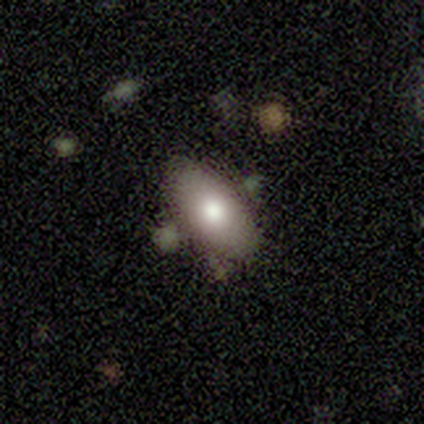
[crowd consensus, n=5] Smooth or featured: smooth — 80% (featured or disk — 20%)
How rounded: in between — 100%
Merging: none — 60% (minor disturbance — 20%)